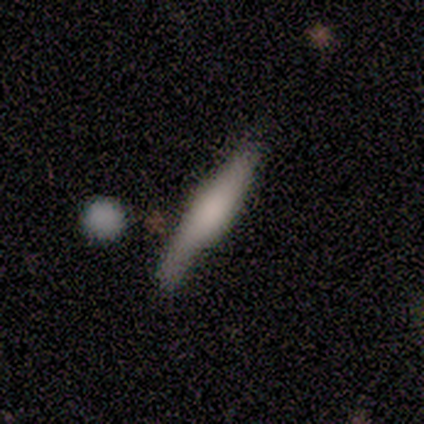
Smooth or featured: featured or disk — 67% (smooth — 33%)
Edge-on disk: yes — 83% (no — 17%)
Edge-on bulge: boxy — 100%
Merging: none — 56% (minor disturbance — 33%)